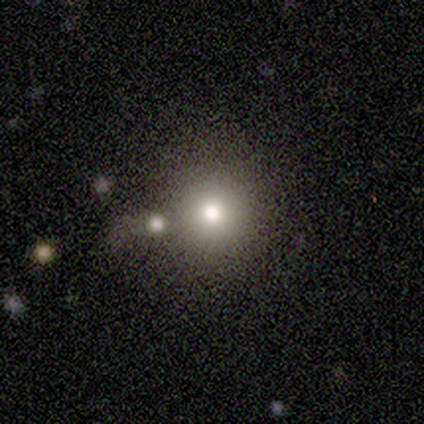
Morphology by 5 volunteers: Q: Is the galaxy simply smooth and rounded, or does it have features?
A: smooth — 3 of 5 (60%).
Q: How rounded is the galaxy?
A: round — 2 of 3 (67%).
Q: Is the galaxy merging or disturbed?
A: none — 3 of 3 (100%).